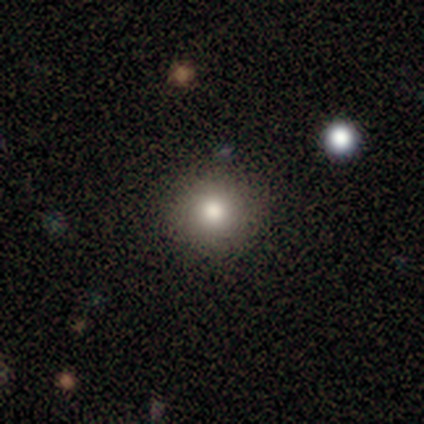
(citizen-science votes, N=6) Q: Smooth or featured?
A: smooth (83%); runner-up: star or artifact (17%)
Q: How rounded?
A: round (100%)
Q: Merging?
A: none (80%); runner-up: minor disturbance (20%)